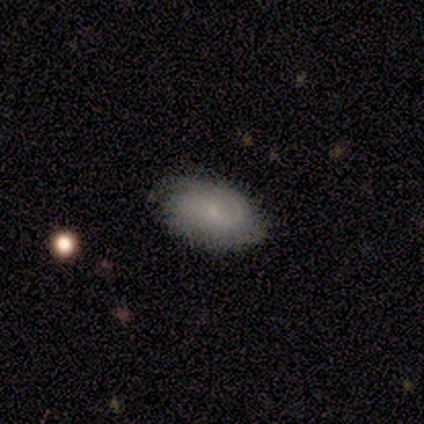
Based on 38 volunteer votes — Volunteers were most divided on "smooth or featured": smooth: 61%, featured or disk: 37%, star or artifact: 3%. More confident: how rounded — in between (96%); merging — none (84%).